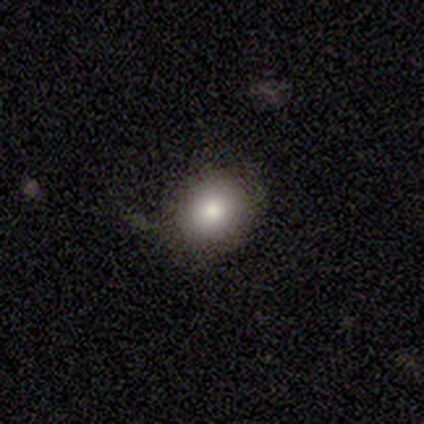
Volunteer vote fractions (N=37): Volunteers were most divided on "merging": none: 79%, minor disturbance: 21%, major disturbance: 0%, merger: 0%. More confident: smooth or featured — smooth (81%); how rounded — round (80%).